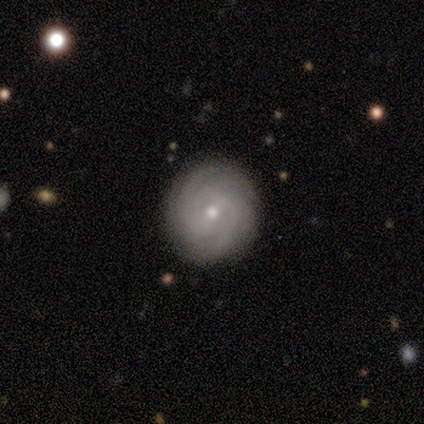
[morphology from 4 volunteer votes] Smooth or featured? 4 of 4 (100%) said featured or disk. Edge-on disk? 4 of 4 (100%) said no. Bar? 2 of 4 (50%) said no. Spiral arms? 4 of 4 (100%) said yes. Spiral winding? 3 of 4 (75%) said tight. Spiral arm count? 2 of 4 (50%) said can't tell. Bulge size? 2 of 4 (50%, tied with small) said moderate. Merging? 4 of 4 (100%) said none.